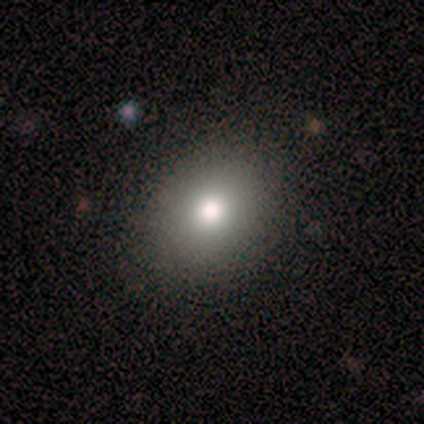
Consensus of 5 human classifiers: Smooth or featured: smooth — 80% (star or artifact — 20%)
How rounded: round — 75% (in between — 25%)
Merging: none — 100%